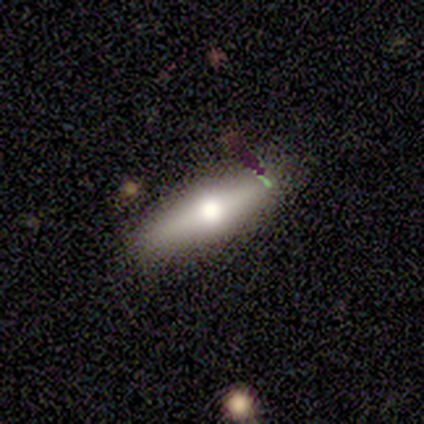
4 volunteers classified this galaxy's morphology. smooth-or-featured: featured or disk: 100% | smooth: 0% | star or artifact: 0%
  disk-edge-on: yes: 75% | no: 25%
    edge-on-bulge: rounded: 100% | boxy: 0% | none: 0%
  merging: none: 50% | minor disturbance: 25% | major disturbance: 25% | merger: 0%